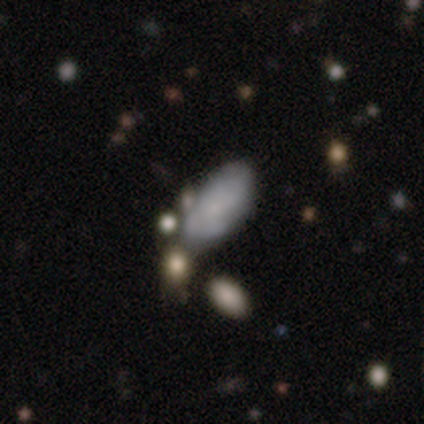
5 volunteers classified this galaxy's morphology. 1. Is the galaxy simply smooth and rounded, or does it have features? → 80% smooth, 20% featured or disk, 0% star or artifact.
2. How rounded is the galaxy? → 100% in between, 0% round, 0% cigar-shaped.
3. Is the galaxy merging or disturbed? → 60% none, 40% minor disturbance, 0% major disturbance, 0% merger.